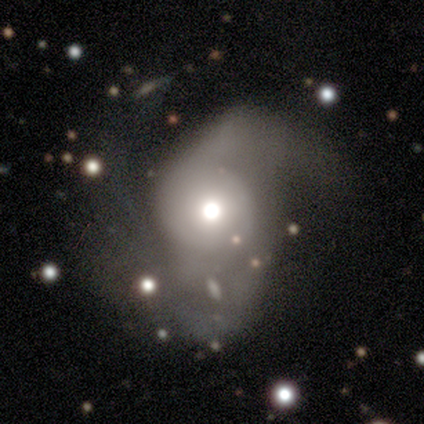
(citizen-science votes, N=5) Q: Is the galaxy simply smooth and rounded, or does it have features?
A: featured or disk — 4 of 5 (80%).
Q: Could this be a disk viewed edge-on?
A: no — 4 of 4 (100%).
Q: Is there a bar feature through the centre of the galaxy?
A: no — 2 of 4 (50%).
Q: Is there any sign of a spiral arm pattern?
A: yes — 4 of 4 (100%).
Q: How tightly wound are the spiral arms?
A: medium — 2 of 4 (50%, tied with loose).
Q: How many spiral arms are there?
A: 2 — 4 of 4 (100%).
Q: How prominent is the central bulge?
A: small — 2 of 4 (50%).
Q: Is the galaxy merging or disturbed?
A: minor disturbance — 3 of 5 (60%).